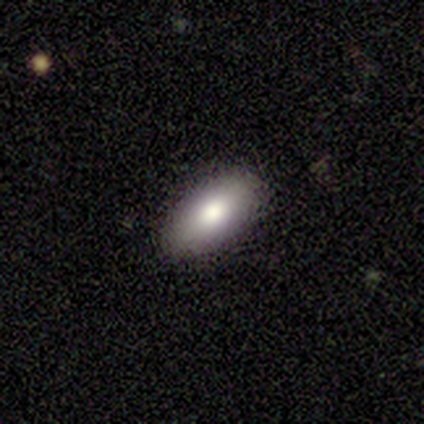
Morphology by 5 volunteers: smooth 60%, featured or disk 40%, star or artifact 0%. Down the decision tree: how rounded — in between (100%); merging — none (80%).